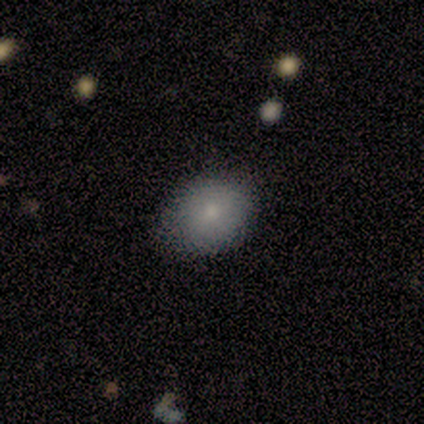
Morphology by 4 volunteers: Q: Smooth or featured?
A: smooth (75%); runner-up: star or artifact (25%)
Q: How rounded?
A: in between (100%)
Q: Merging?
A: none (67%); runner-up: minor disturbance (33%)